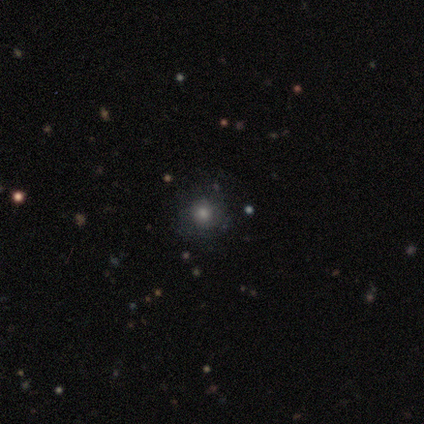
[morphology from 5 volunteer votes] This is likely a smooth galaxy (60%). How rounded: clearly round (100%). Merging: likely none (75%).